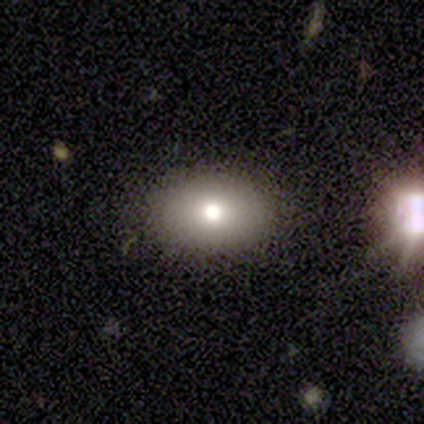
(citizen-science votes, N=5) Smooth or featured? smooth (80%)
How rounded? round (50%, tied with in between)
Merging? none (100%)